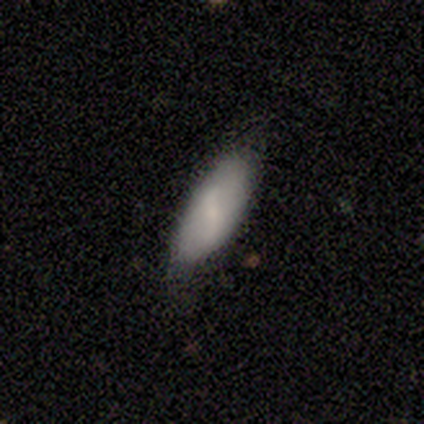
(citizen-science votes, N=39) Smooth or featured? smooth (72%)
How rounded? in between (82%)
Merging? none (68%)